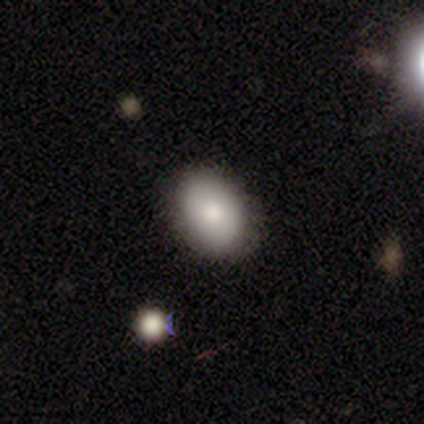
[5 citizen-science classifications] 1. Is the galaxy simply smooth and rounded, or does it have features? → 100% smooth, 0% featured or disk, 0% star or artifact.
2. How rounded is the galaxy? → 80% in between, 20% round, 0% cigar-shaped.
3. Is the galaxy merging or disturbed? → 100% none, 0% minor disturbance, 0% major disturbance, 0% merger.